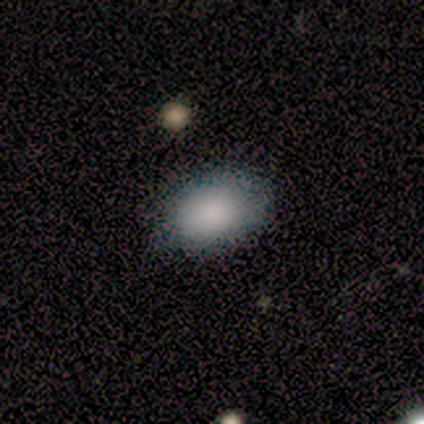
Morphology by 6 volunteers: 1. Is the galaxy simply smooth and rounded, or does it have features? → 100% smooth, 0% featured or disk, 0% star or artifact.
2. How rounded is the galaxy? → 83% in between, 17% round, 0% cigar-shaped.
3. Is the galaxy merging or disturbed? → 100% none, 0% minor disturbance, 0% major disturbance, 0% merger.